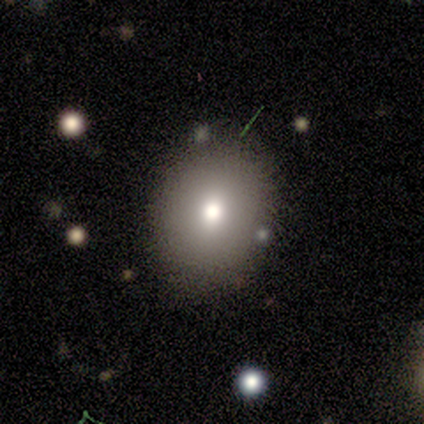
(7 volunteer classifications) Smooth or featured? 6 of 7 (86%) said smooth. How rounded? 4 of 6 (67%) said round. Merging? 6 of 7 (86%) said none.